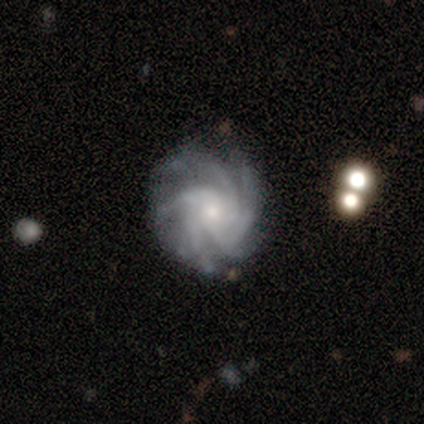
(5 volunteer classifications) smooth_or_featured: featured or disk (p=1.00)
disk_edge_on: no (p=1.00)
bar: no (p=0.80) [alt: weak p=0.20]
has_spiral_arms: yes (p=1.00)
spiral_winding: tight (p=0.60) [alt: medium p=0.40]
spiral_arm_count: 4 (p=0.80) [alt: more than 4 p=0.20]
bulge_size: moderate (p=0.80) [alt: small p=0.20]
merging: none (p=0.60) [alt: minor disturbance p=0.20]